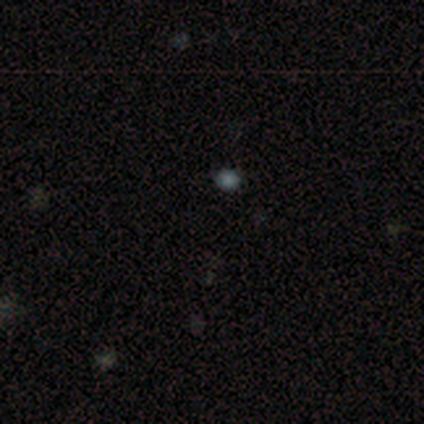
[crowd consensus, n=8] smooth 50% (tied), star or artifact 50% (tied), featured or disk 0%. Down the decision tree: how rounded — round (75%); merging — none (100%).